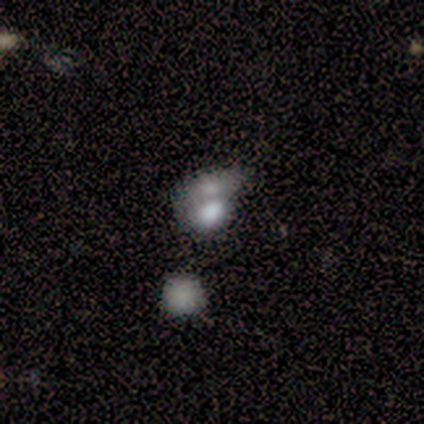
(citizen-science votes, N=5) This is likely a smooth galaxy (60%). How rounded: clearly in between (100%). Merging: likely merger (67%).